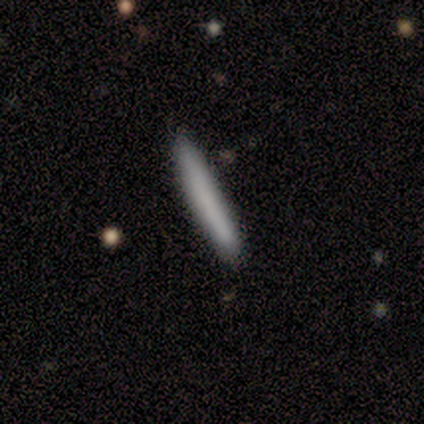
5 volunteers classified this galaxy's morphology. Q: Smooth or featured?
A: smooth (100%)
Q: How rounded?
A: cigar-shaped (100%)
Q: Merging?
A: none (100%)